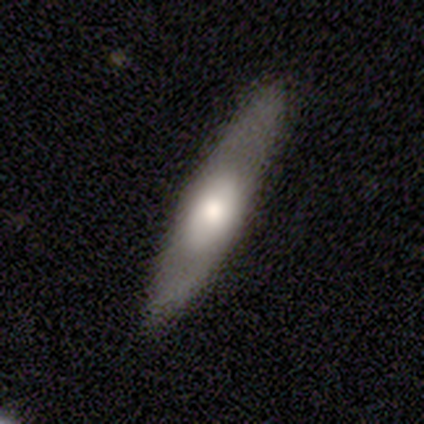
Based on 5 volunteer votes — This is likely a smooth galaxy (60%). How rounded: clearly cigar-shaped (100%). Merging: clearly none (80%).